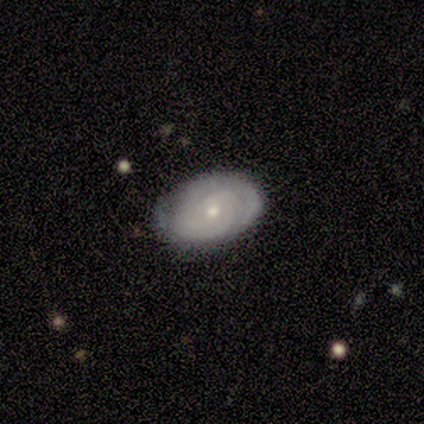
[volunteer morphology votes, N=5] smooth_or_featured: featured or disk (p=1.00)
disk_edge_on: no (p=1.00)
bar: no (p=0.80) [alt: weak p=0.20]
has_spiral_arms: yes (p=0.80) [alt: no p=0.20]
spiral_winding: tight (p=1.00)
spiral_arm_count: can't tell (p=1.00)
bulge_size: small (p=0.60) [alt: moderate p=0.40]
merging: none (p=1.00)